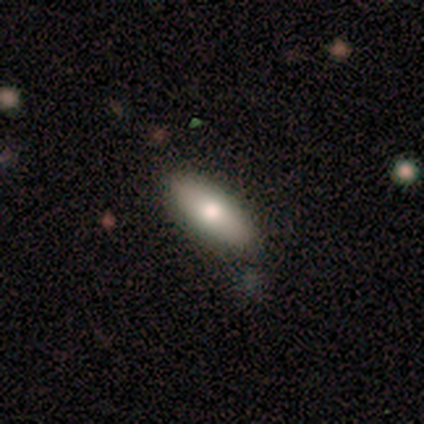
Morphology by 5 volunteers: Q: Smooth or featured?
A: smooth (60%); runner-up: featured or disk (40%)
Q: How rounded?
A: in between (100%)
Q: Merging?
A: none (60%); runner-up: minor disturbance (40%)